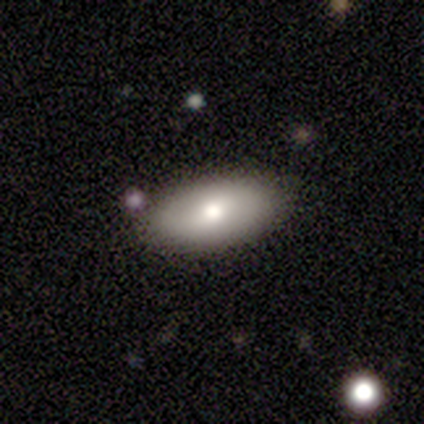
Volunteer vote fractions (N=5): Overall: smooth (60%; featured or disk 40%). How rounded: in between (100%). Merging: none (100%).